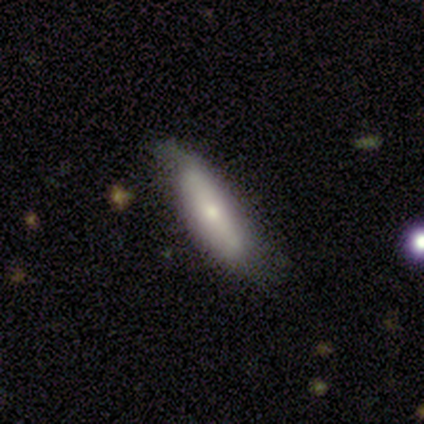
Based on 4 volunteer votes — Q: Smooth or featured?
A: smooth (100%)
Q: How rounded?
A: in between (75%); runner-up: cigar-shaped (25%)
Q: Merging?
A: minor disturbance (75%); runner-up: none (25%)